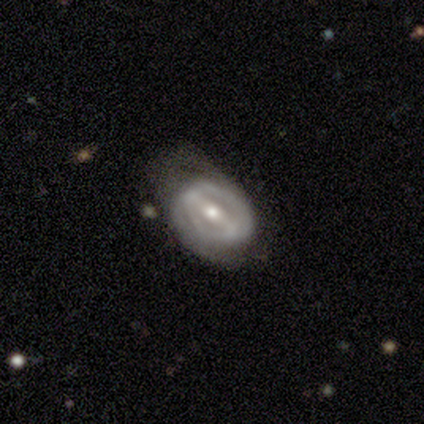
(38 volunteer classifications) smooth-or-featured: featured or disk: 74% | smooth: 18% | star or artifact: 8%
  disk-edge-on: no: 100% | yes: 0%
    bar: strong: 68% | weak: 32% | no: 0%
    has-spiral-arms: yes: 68% | no: 32%
      spiral-winding: tight: 58% | medium: 37% | loose: 5%
      spiral-arm-count: 2: 68% | can't tell: 21% | 1: 11% | 3: 0% | 4: 0% | more than 4: 0%
    bulge-size: moderate: 64% | small: 29% | large: 7% | dominant: 0% | none: 0%
  merging: none: 40% | minor disturbance: 31% | major disturbance: 26% | merger: 3%